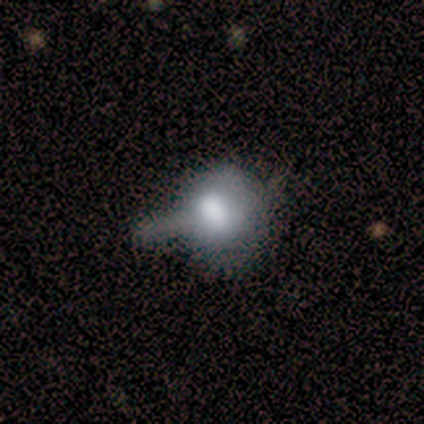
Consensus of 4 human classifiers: Overall: smooth (50%; featured or disk 25%). How rounded: round (50%, tied with in between). Merging: minor disturbance (33%, tied with major disturbance and merger).